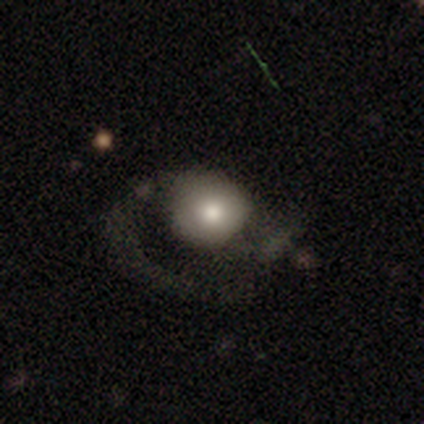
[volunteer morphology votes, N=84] smooth-or-featured: smooth: 55% | featured or disk: 37% | star or artifact: 8%
  how-rounded: round: 89% | in between: 11% | cigar-shaped: 0%
  merging: major disturbance: 53% | none: 38% | minor disturbance: 8% | merger: 1%